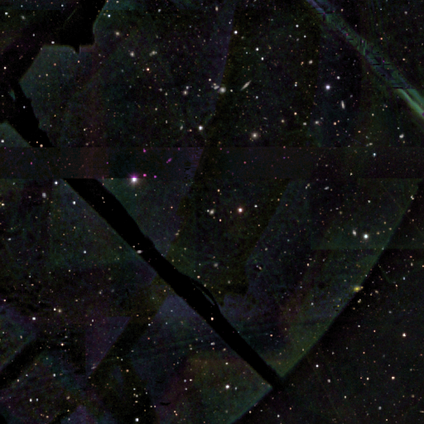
Smooth or featured? 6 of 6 (100%) said star or artifact.